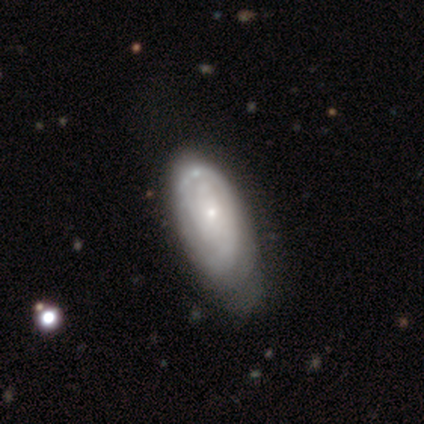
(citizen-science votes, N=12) Q: Smooth or featured?
A: featured or disk (83%); runner-up: smooth (17%)
Q: Edge-on disk?
A: no (90%); runner-up: yes (10%)
Q: Bar?
A: no (78%); runner-up: weak (22%)
Q: Spiral arms?
A: yes (78%); runner-up: no (22%)
Q: Spiral winding?
A: tight (86%); runner-up: medium (14%)
Q: Spiral arm count?
A: can't tell (71%); runner-up: 2 (14%)
Q: Bulge size?
A: small (89%); runner-up: dominant (11%)
Q: Merging?
A: none (58%); runner-up: major disturbance (25%)